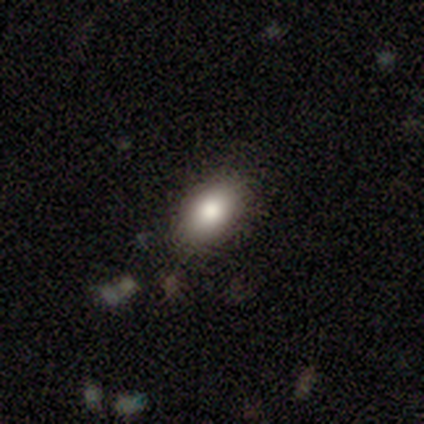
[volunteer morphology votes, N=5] Q: Smooth or featured?
A: smooth (80%); runner-up: star or artifact (20%)
Q: How rounded?
A: in between (100%)
Q: Merging?
A: none (75%); runner-up: minor disturbance (25%)